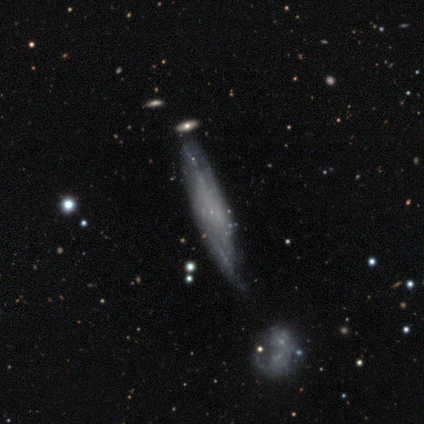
smooth_or_featured: featured or disk (p=0.64) [alt: smooth p=0.31]
disk_edge_on: yes (p=0.52) [alt: no p=0.48]
edge_on_bulge: none (p=0.69) [alt: boxy p=0.15]
merging: none (p=0.43) [alt: merger p=0.14]